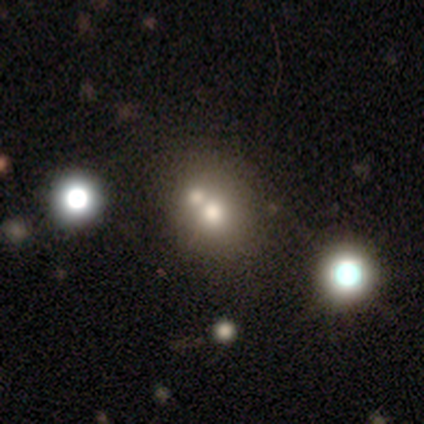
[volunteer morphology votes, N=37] Smooth or featured: smooth — 70% (featured or disk — 16%)
How rounded: round — 85% (in between — 15%)
Merging: merger — 50% (none — 44%)